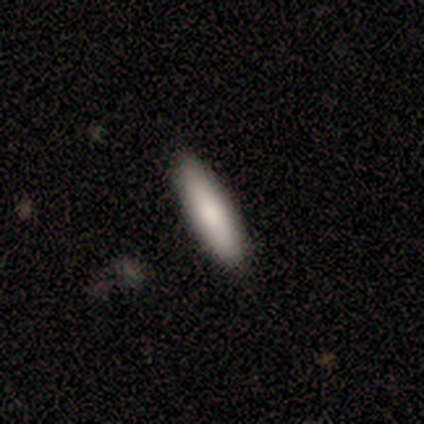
smooth-or-featured: smooth: 100% | featured or disk: 0% | star or artifact: 0%
  how-rounded: cigar-shaped: 75% | in between: 25% | round: 0%
  merging: none: 50% | minor disturbance: 25% | major disturbance: 25% | merger: 0%